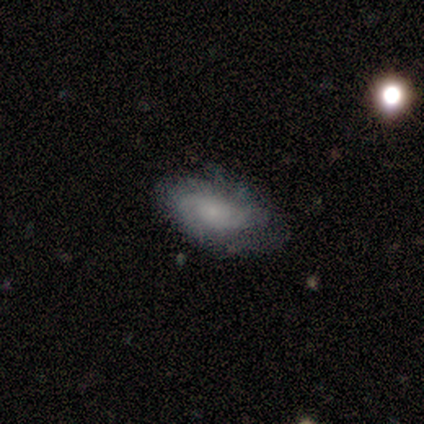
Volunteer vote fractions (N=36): A featured or disk galaxy (78%) with no bar (68%), 2 (79%) tight (57%) spiral arms (100%) and a small central bulge (57%).

Vote fractions:
- Smooth or featured? featured or disk: 78% / smooth: 11% / star or artifact: 11%
- Edge-on disk? no: 100% / yes: 0%
- Bar? no: 68% / weak: 32% / strong: 0%
- Spiral arms? yes: 100% / no: 0%
- Spiral winding? tight: 57% / medium: 29% / loose: 14%
- Spiral arm count? 2: 79% / can't tell: 18% / 3: 4% / 1: 0% / 4: 0% / more than 4: 0%
- Bulge size? small: 57% / moderate: 21% / none: 14% / dominant: 4% / large: 4%
- Merging? none: 50% / minor disturbance: 34% / major disturbance: 12% / merger: 3%